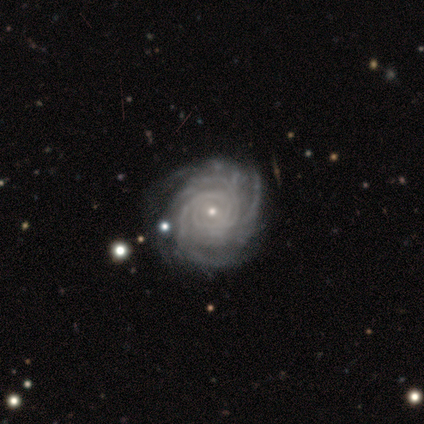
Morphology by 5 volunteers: Smooth or featured?
  - featured or disk: 100% *
  - smooth: 0%
  - star or artifact: 0%
Edge-on disk?
  - no: 100% *
  - yes: 0%
Bar?
  - no: 80% *
  - strong: 20%
  - weak: 0%
Spiral arms?
  - yes: 100% *
  - no: 0%
Spiral winding?
  - tight: 80% *
  - medium: 20%
  - loose: 0%
Spiral arm count?
  - can't tell: 60% *
  - more than 4: 40%
  - 1: 0%
  - 2: 0%
  - 3: 0%
  - 4: 0%
Bulge size?
  - small: 100% *
  - dominant: 0%
  - large: 0%
  - moderate: 0%
  - none: 0%
Merging?
  - none: 40% * (tied)
  - minor disturbance: 40% * (tied)
  - major disturbance: 20%
  - merger: 0%